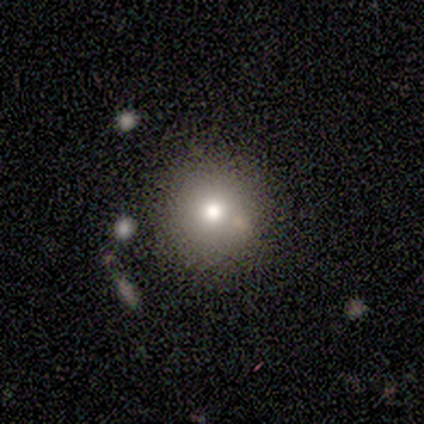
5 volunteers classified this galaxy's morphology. Overall: smooth (40%, tied with featured or disk). How rounded: round (100%). Merging: none (100%).